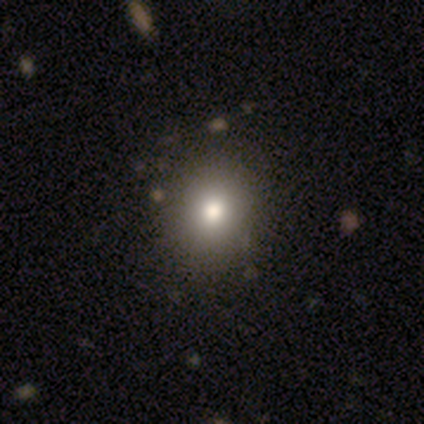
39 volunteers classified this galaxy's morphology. smooth 79%, featured or disk 15%, star or artifact 5%. Down the decision tree: how rounded — round (81%); merging — none (68%).